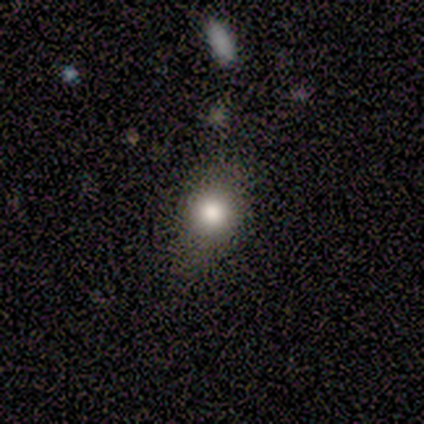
Smooth or featured: smooth — 100%
How rounded: in between — 67% (round — 33%)
Merging: minor disturbance — 67% (none — 33%)